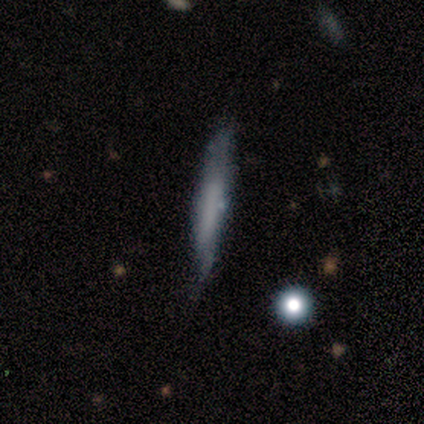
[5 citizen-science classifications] Q: Smooth or featured?
A: featured or disk (60%); runner-up: smooth (40%)
Q: Edge-on disk?
A: yes (100%)
Q: Edge-on bulge?
A: none (67%); runner-up: boxy (33%)
Q: Merging?
A: none (40%); tied with: minor disturbance (40%)